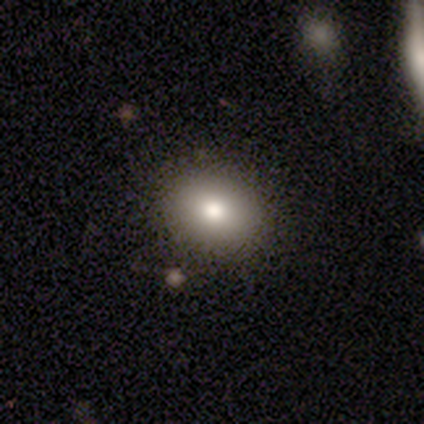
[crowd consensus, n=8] This is clearly a smooth galaxy (88%). How rounded: likely round (71%). Merging: clearly none (88%).